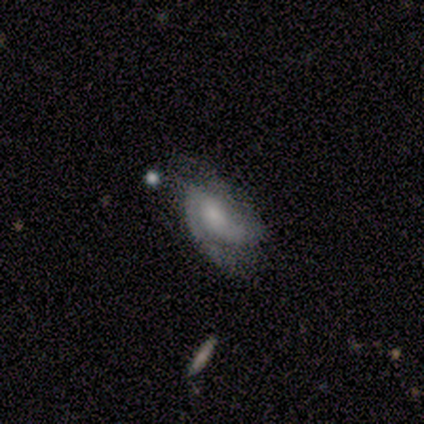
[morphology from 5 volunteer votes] Q: Smooth or featured?
A: featured or disk (60%); runner-up: smooth (40%)
Q: Edge-on disk?
A: no (100%)
Q: Bar?
A: weak (67%); runner-up: no (33%)
Q: Spiral arms?
A: yes (100%)
Q: Spiral winding?
A: medium (100%)
Q: Spiral arm count?
A: 2 (100%)
Q: Bulge size?
A: moderate (33%); tied with: small (33%); none (33%)
Q: Merging?
A: minor disturbance (80%); runner-up: none (20%)